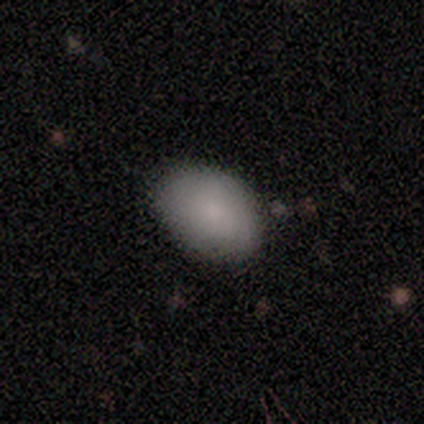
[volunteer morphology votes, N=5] smooth 80%, featured or disk 20%, star or artifact 0%. Down the decision tree: how rounded — in between (75%); merging — none (80%).